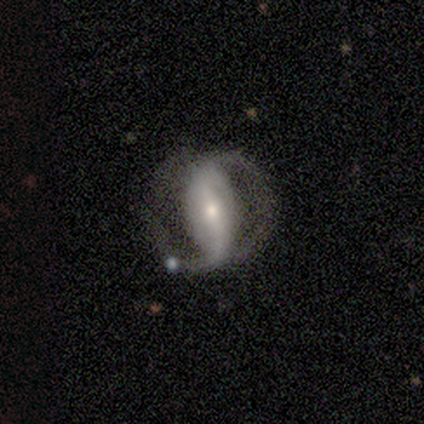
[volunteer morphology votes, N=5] Volunteers were most divided on "spiral winding" (2-way tie): tight: 50%, medium: 50%, loose: 0%; "spiral arm count" (2-way tie): 2: 50%, 3: 50%, 1: 0%, 4: 0%, more than 4: 0%, can't tell: 0%. More confident: edge-on disk — no (100%); bar — strong (67%); spiral arms — yes (67%); bulge size — small (67%); smooth or featured — featured or disk (60%); merging — none (60%).